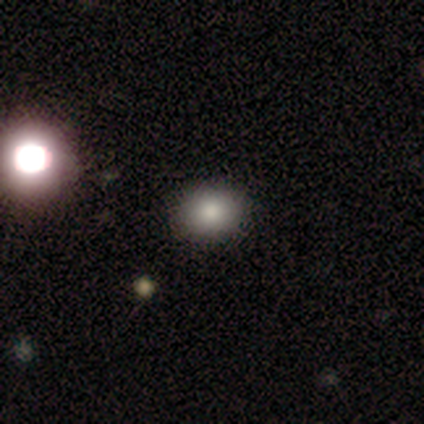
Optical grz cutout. It shows a smooth galaxy with no disk features (100%) that is round (60%). Merging: none (100%).